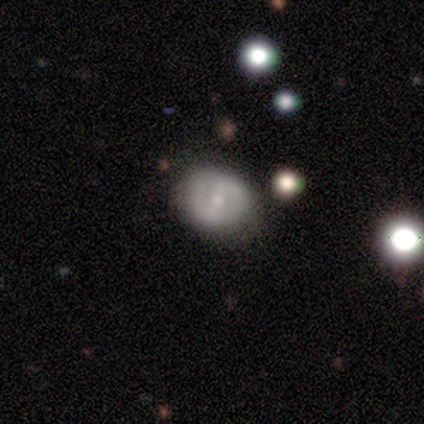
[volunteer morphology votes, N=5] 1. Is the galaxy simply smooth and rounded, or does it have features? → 100% featured or disk, 0% smooth, 0% star or artifact.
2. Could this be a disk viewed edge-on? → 100% no, 0% yes.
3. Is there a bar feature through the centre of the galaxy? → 40% strong (tied), 40% no (tied), 20% weak.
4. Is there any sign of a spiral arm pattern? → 80% yes, 20% no.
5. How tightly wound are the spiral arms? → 50% tight (tied), 50% medium (tied), 0% loose.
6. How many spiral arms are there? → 100% 2, 0% 1, 0% 3, 0% 4, 0% more than 4, 0% can't tell.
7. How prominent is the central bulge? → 80% small, 20% none, 0% dominant, 0% large, 0% moderate.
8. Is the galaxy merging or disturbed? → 60% minor disturbance, 40% none, 0% major disturbance, 0% merger.